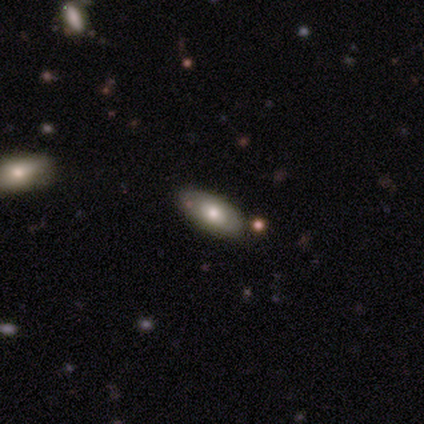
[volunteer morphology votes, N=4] Q: Smooth or featured?
A: smooth (50%); tied with: featured or disk (50%)
Q: How rounded?
A: in between (100%)
Q: Merging?
A: none (75%); runner-up: minor disturbance (25%)